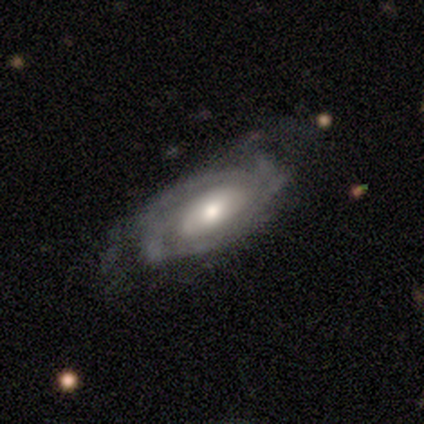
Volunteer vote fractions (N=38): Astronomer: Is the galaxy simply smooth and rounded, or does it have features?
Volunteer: featured or disk — 82%.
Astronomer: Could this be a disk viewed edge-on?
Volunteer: no — 97%.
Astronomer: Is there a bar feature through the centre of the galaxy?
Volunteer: no — 70%.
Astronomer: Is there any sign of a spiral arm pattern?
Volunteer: yes — 90%.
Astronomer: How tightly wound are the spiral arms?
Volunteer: tight — 67%.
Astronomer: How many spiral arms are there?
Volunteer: can't tell — 48% (runner-up: 2, 26%).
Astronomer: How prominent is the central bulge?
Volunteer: moderate — 80%.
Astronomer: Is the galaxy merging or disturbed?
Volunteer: none — 63%.